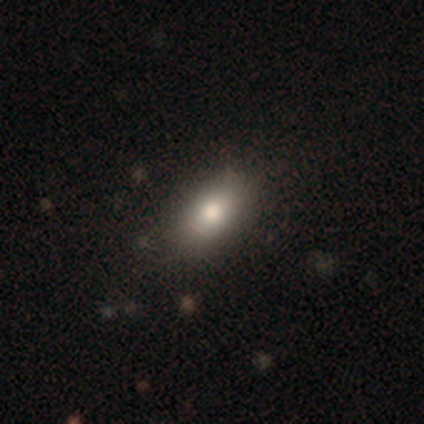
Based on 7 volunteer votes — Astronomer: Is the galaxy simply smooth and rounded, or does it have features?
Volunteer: smooth — 57%.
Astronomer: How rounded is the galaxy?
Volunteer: in between — 100%.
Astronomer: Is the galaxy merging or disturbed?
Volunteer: none — 100%.